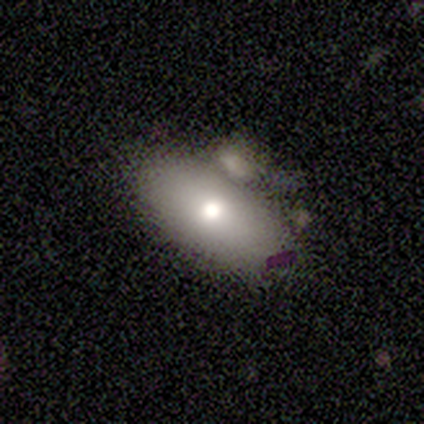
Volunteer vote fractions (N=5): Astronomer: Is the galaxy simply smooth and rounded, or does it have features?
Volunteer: smooth — 60%.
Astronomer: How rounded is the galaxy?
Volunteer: in between — 100%.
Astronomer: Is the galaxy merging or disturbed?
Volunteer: major disturbance — 50%.